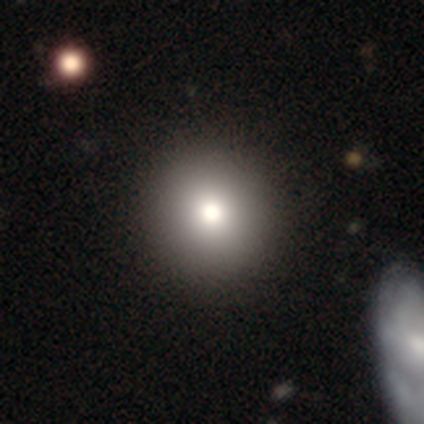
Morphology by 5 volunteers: Volunteers were most divided on "smooth or featured" (2-way tie): smooth: 40%, featured or disk: 40%, star or artifact: 20%. More confident: how rounded — round (100%); merging — none (75%).